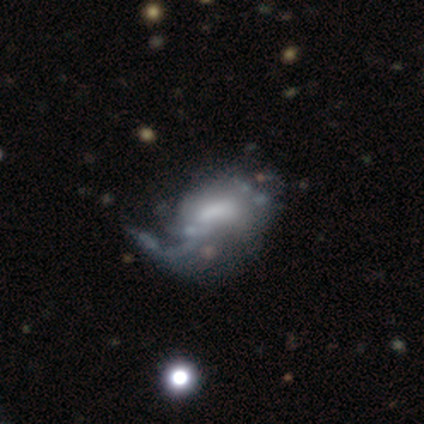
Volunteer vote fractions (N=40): Smooth or featured: featured or disk — 78% (smooth — 18%)
Edge-on disk: no — 100%
Bar: no — 42% (weak — 39%)
Spiral arms: no — 65% (yes — 35%)
Bulge size: none — 29% (moderate — 26%)
Merging: major disturbance — 50% (none — 13%)